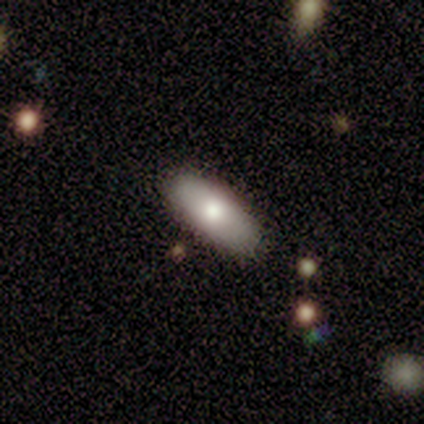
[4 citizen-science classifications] Smooth or featured? smooth (50%, tied with featured or disk)
How rounded? in between (50%, tied with cigar-shaped)
Merging? none (75%)